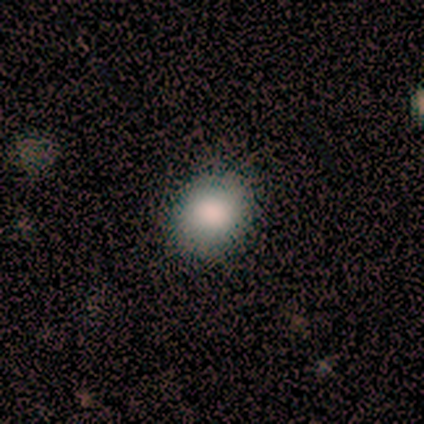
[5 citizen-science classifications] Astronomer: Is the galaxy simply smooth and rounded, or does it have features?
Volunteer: smooth — 80%.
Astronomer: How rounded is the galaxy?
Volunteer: round — 100%.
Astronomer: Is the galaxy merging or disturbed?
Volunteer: none — 80%.